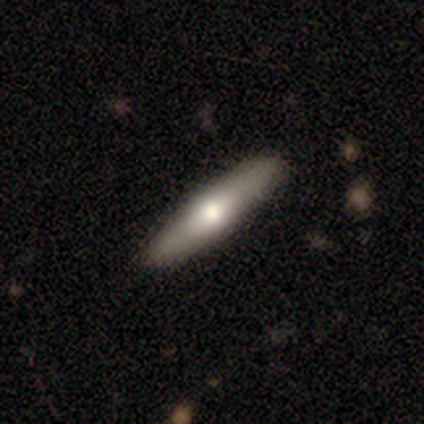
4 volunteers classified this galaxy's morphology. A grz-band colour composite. It shows a featured or disk galaxy (75%) with no bar (100%), no spiral arms (100%) and a moderate central bulge (50%, tied with small). Merging: none (100%).